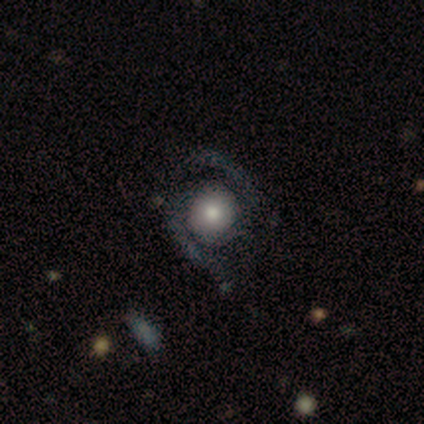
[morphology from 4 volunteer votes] Volunteers were most divided on "spiral arms" (2-way tie): yes: 50%, no: 50%. More confident: bar — no (100%); spiral winding — medium (100%); spiral arm count — 2 (100%); bulge size — moderate (100%); smooth or featured — featured or disk (75%); edge-on disk — no (67%); merging — none (50%).